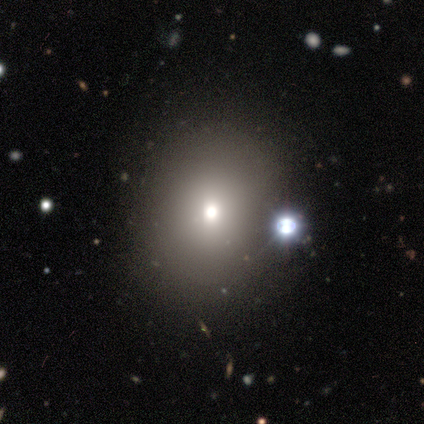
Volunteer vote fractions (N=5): smooth_or_featured: smooth (p=0.80) [alt: featured or disk p=0.20]
how_rounded: round (p=0.50) [tied with: in between p=0.50]
merging: none (p=0.60) [alt: minor disturbance p=0.20]